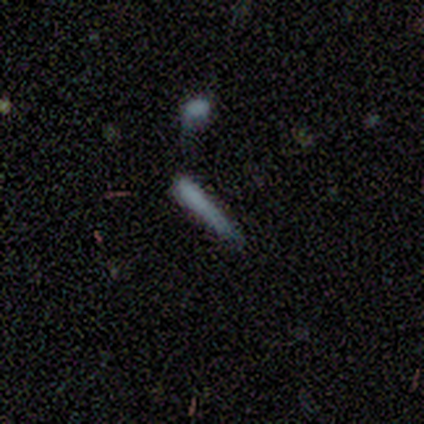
Overall: smooth (80%). How rounded: cigar-shaped (100%). Merging: none (75%).